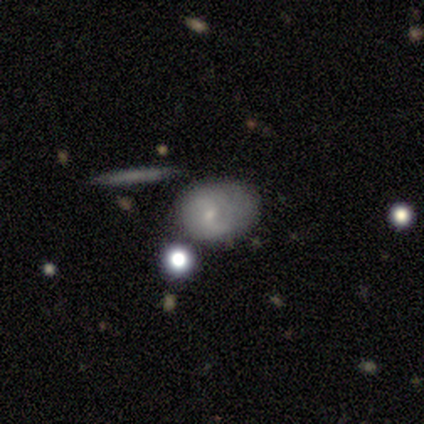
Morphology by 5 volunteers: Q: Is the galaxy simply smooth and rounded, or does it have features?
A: featured or disk — 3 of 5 (60%).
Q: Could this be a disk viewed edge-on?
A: no — 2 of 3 (67%).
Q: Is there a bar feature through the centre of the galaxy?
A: no — 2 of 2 (100%).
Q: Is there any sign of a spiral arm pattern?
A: yes — 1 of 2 (50%, tied with no).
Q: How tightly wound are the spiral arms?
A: medium — 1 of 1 (100%).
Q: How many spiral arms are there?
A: can't tell — 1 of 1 (100%).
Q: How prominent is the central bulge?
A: dominant — 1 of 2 (50%, tied with small).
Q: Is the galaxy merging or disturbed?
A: none — 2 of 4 (50%).